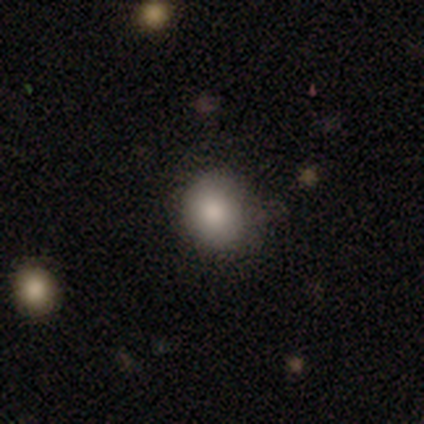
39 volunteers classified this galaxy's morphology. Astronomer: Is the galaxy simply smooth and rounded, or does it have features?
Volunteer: smooth — 87%.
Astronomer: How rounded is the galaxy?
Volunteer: round — 68%.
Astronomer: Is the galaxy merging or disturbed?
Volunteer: none — 65%.